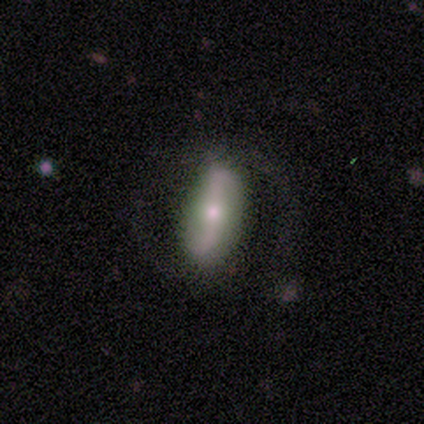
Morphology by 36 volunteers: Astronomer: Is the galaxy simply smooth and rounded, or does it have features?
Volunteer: smooth — 50% (runner-up: featured or disk, 44%).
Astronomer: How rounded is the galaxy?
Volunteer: in between — 67%.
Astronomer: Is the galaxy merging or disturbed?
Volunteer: none — 71%.